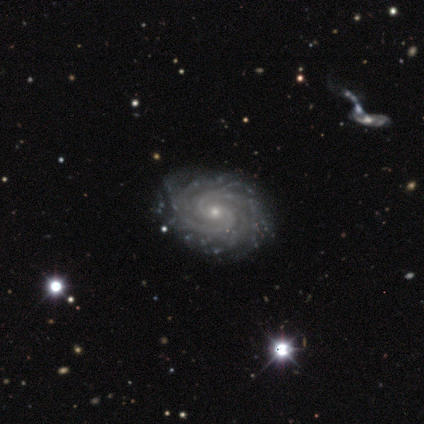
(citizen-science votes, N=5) Overall: featured or disk (100%). Edge-on disk: no (100%). Bar: no (60%; weak 40%). Spiral arms: yes (100%). Spiral arm count: more than 4 (40%; 2 20%). Spiral winding: medium (60%; tight 40%). Bulge size: small (80%). Merging: none (100%).